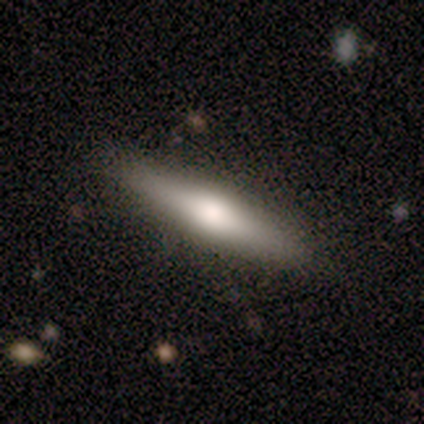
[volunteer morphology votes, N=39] Q: Smooth or featured?
A: featured or disk (54%); runner-up: smooth (46%)
Q: Edge-on disk?
A: yes (90%); runner-up: no (10%)
Q: Edge-on bulge?
A: rounded (79%); runner-up: boxy (16%)
Q: Merging?
A: none (87%); runner-up: minor disturbance (10%)